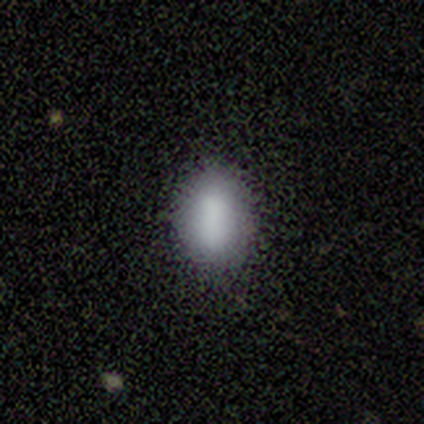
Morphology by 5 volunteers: Q: Smooth or featured?
A: smooth (80%); runner-up: star or artifact (20%)
Q: How rounded?
A: in between (100%)
Q: Merging?
A: none (75%); runner-up: minor disturbance (25%)